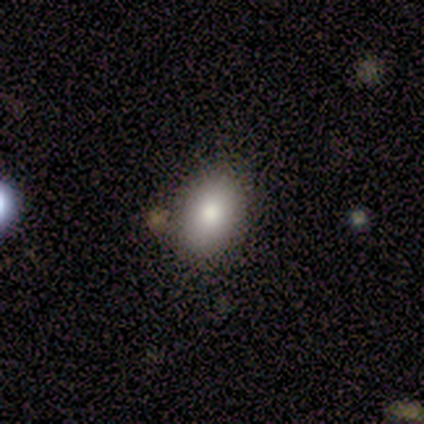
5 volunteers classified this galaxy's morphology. Smooth or featured? 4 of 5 (80%) said smooth. How rounded? 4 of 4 (100%) said in between. Merging? 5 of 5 (100%) said none.